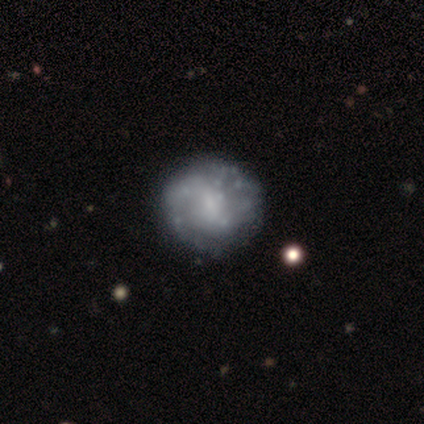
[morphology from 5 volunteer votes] Volunteers were most divided on "bar": no: 67%, strong: 33%, weak: 0%. More confident: spiral winding — medium (100%); spiral arm count — can't tell (100%); smooth or featured — featured or disk (80%); edge-on disk — no (75%); spiral arms — yes (67%); bulge size — none (67%); merging — none (60%).